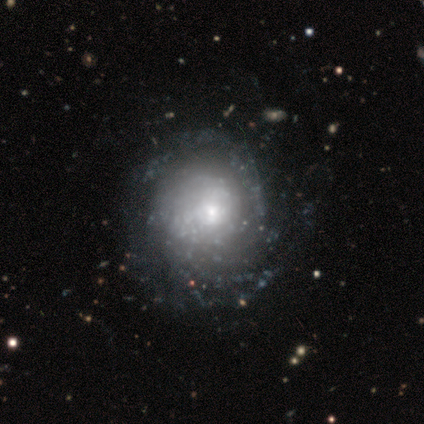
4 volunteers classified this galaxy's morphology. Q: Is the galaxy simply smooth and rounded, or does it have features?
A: featured or disk — 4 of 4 (100%).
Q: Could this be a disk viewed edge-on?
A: no — 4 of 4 (100%).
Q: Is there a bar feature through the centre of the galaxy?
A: no — 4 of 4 (100%).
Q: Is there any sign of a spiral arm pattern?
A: yes — 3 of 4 (75%).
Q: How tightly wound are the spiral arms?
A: medium — 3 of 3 (100%).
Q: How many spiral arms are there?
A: can't tell — 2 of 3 (67%).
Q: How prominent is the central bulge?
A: small — 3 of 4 (75%).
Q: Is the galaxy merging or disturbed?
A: none — 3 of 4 (75%).